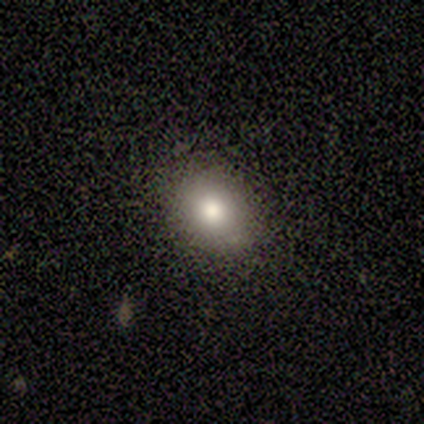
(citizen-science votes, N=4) Morphology: type=smooth (75%); roundness=round (67%); merging=none (67%).